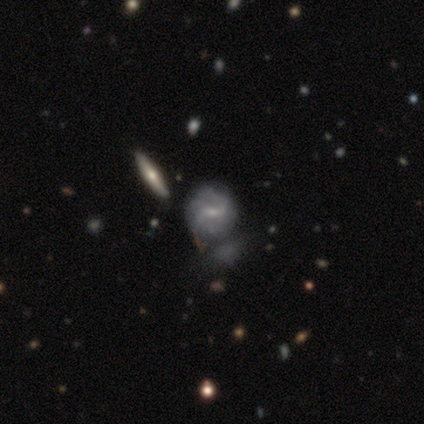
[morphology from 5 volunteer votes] This is clearly a featured or disk galaxy (100%). It is clearly not viewed edge-on (80%). Bar: possibly weak (50%). Spiral arm pattern: likely yes (75%). Spiral arm count: clearly 3 (100%). Spiral winding: likely tight (67%). Central bulge: likely small (75%). Merging: clearly none (80%).